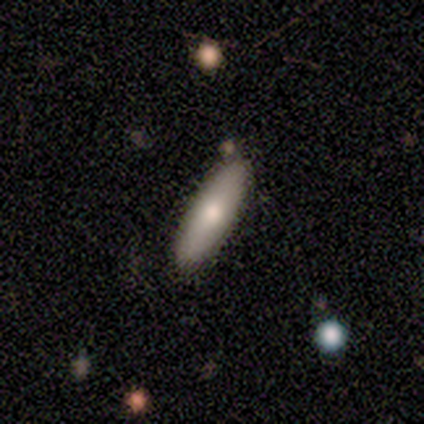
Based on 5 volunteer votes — Overall: smooth (60%; featured or disk 40%). How rounded: in between (100%). Merging: none (100%).